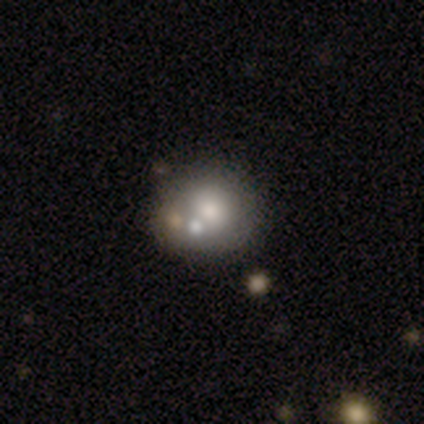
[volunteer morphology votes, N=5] Overall: smooth (60%; featured or disk 20%). How rounded: round (67%; in between 33%). Merging: none (50%, tied with merger).